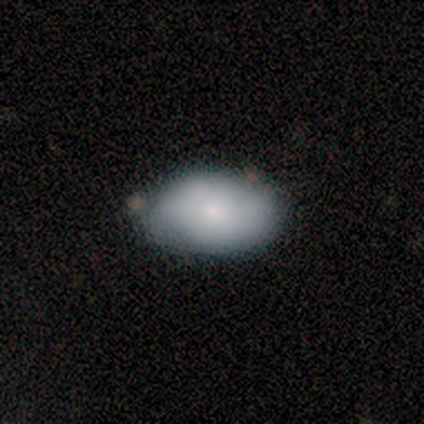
Smooth or featured?
  - smooth: 75% *
  - featured or disk: 25%
  - star or artifact: 0%
How rounded?
  - round: 67% *
  - in between: 33%
  - cigar-shaped: 0%
Merging?
  - none: 50% * (tied)
  - minor disturbance: 50% * (tied)
  - major disturbance: 0%
  - merger: 0%